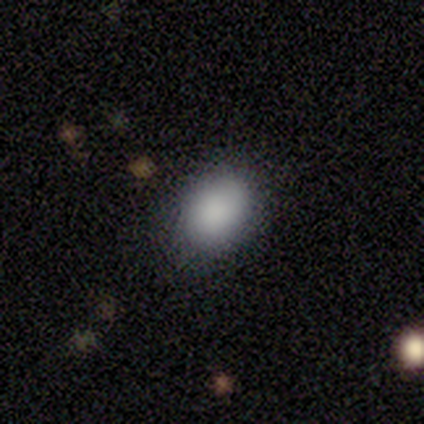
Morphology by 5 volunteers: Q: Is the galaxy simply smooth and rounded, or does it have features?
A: smooth — 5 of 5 (100%).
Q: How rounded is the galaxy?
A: in between — 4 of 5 (80%).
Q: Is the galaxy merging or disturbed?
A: none — 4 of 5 (80%).